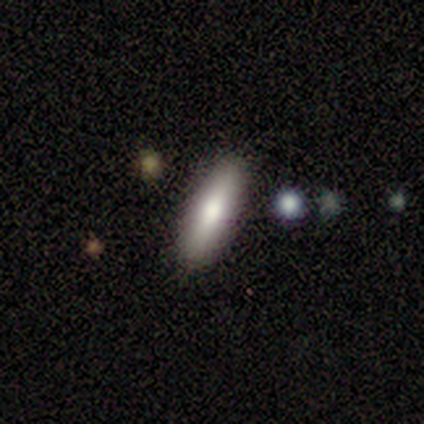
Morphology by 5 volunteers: smooth 60%, featured or disk 20%, star or artifact 20%. Down the decision tree: how rounded — cigar-shaped (67%); merging — none (100%).